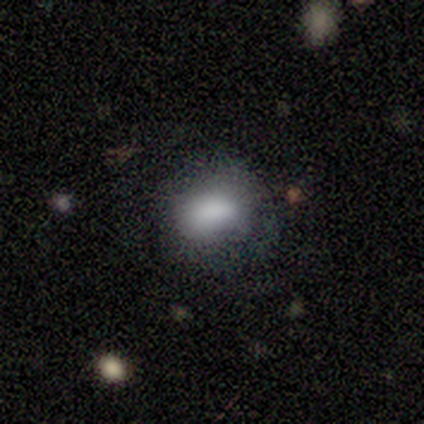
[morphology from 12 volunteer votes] Smooth or featured: smooth — 83% (featured or disk — 17%)
How rounded: in between — 80% (round — 20%)
Merging: none — 50% (minor disturbance — 42%)